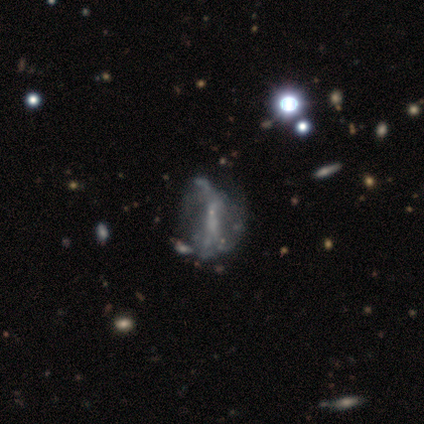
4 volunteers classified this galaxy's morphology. featured or disk 75%, smooth 25%, star or artifact 0%. Down the decision tree: edge-on disk — no (100%); bar — no (100%); spiral arms — no (100%); bulge size — none (67%); merging — none (50%, tied with major disturbance).